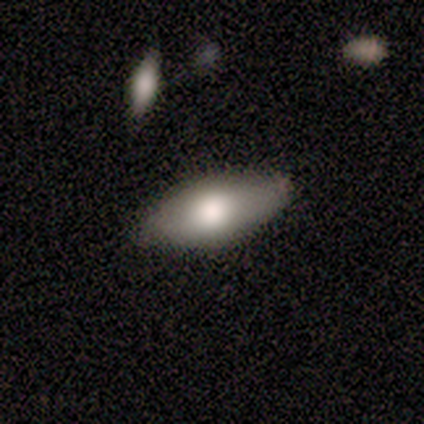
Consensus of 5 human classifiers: This appears to be a smooth galaxy with no disk features (80%) that is in between round and cigar-shaped (100%). Merging: none (100%).